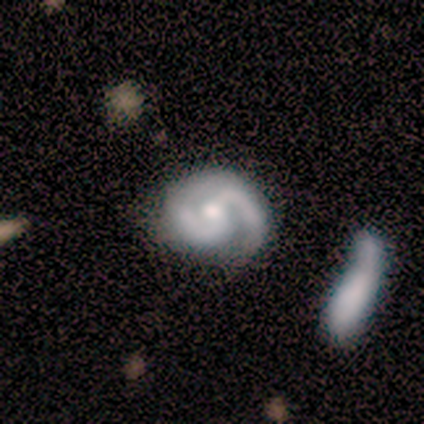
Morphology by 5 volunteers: featured or disk 80%, star or artifact 20%, smooth 0%. Down the decision tree: edge-on disk — no (100%); bar — no (75%); spiral arms — yes (100%); spiral arm count — 2 (100%); spiral winding — tight (50%, tied with medium); bulge size — moderate (75%); merging — none (75%).